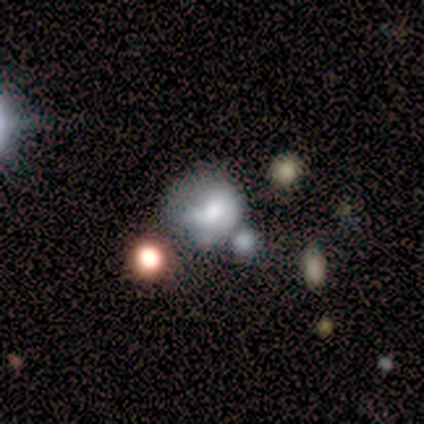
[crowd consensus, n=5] A smooth galaxy with no disk features (80%) that is round (75%).

Vote fractions:
- Smooth or featured? smooth: 80% / star or artifact: 20% / featured or disk: 0%
- How rounded? round: 75% / in between: 25% / cigar-shaped: 0%
- Merging? none: 50% (tied) / minor disturbance: 50% (tied) / major disturbance: 0% / merger: 0%